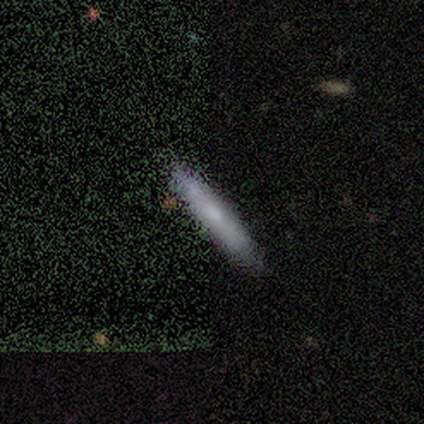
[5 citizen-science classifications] Q: Smooth or featured?
A: smooth (80%); runner-up: star or artifact (20%)
Q: How rounded?
A: cigar-shaped (100%)
Q: Merging?
A: none (75%); runner-up: merger (25%)